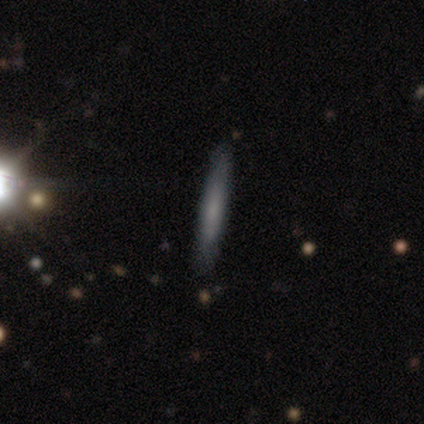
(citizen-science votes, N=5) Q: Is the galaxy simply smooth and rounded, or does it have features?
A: featured or disk — 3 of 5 (60%).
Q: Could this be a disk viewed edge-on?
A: yes — 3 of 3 (100%).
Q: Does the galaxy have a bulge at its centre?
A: rounded — 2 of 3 (67%).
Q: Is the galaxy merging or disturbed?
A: none — 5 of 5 (100%).